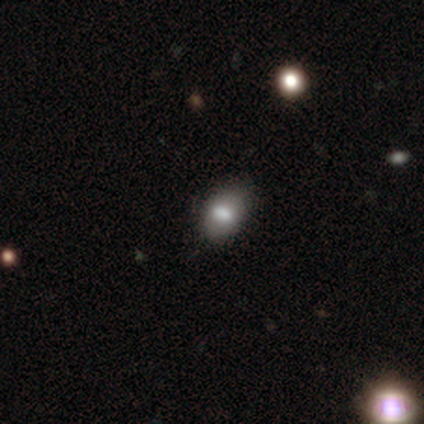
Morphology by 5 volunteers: Smooth or featured?
  - smooth: 80% *
  - featured or disk: 20%
  - star or artifact: 0%
How rounded?
  - in between: 100% *
  - round: 0%
  - cigar-shaped: 0%
Merging?
  - none: 80% *
  - minor disturbance: 20%
  - major disturbance: 0%
  - merger: 0%